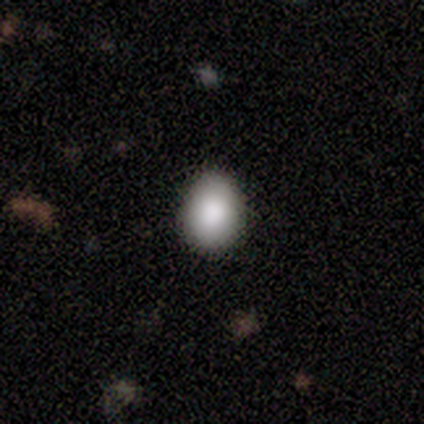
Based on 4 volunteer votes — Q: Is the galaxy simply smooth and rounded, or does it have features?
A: smooth — 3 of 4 (75%).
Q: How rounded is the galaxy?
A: in between — 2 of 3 (67%).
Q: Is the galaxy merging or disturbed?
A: none — 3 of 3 (100%).